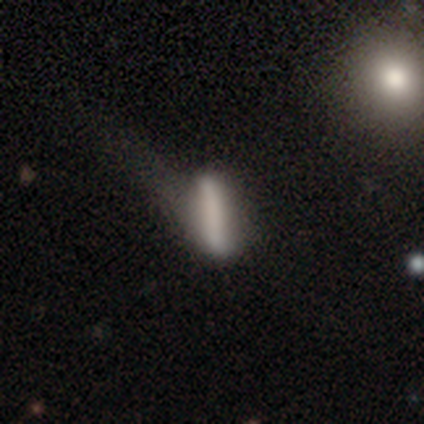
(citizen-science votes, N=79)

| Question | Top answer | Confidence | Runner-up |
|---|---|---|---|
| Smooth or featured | smooth | 52% | featured or disk (37%) |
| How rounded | cigar-shaped | 80% | in between (15%) |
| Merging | none | 23% | tied: major disturbance (23%) |